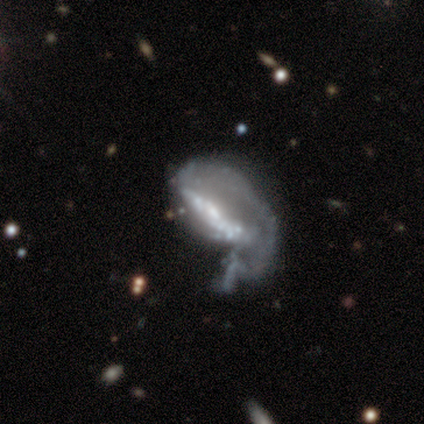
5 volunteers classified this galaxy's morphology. This is clearly a featured or disk galaxy (80%). It is possibly viewed edge-on (50%, tied with no). Edge-on bulge: clearly rounded (100%). Merging: marginally major disturbance (40%, tied with merger).